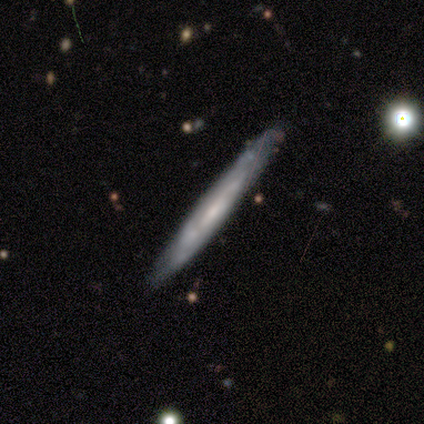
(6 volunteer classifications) A smooth galaxy with no disk features (67%) that is cigar-shaped (100%). Merging: none (67%).